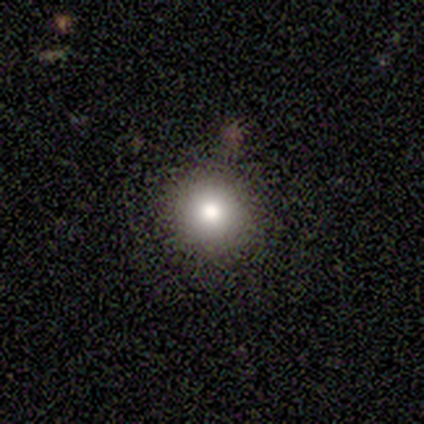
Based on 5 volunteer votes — A smooth galaxy with no disk features (100%) that is round (80%).

Vote fractions:
- Smooth or featured? smooth: 100% / featured or disk: 0% / star or artifact: 0%
- How rounded? round: 80% / in between: 20% / cigar-shaped: 0%
- Merging? none: 80% / minor disturbance: 20% / major disturbance: 0% / merger: 0%